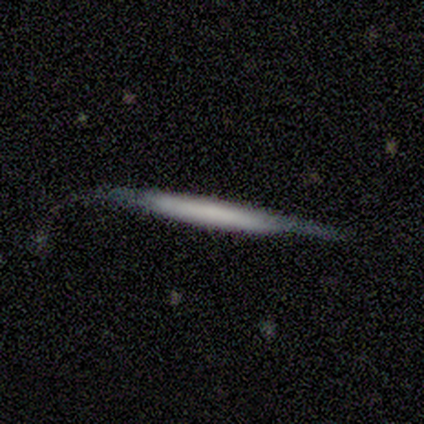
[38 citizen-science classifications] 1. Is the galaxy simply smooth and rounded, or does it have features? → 61% featured or disk, 34% smooth, 5% star or artifact.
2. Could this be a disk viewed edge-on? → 96% yes, 4% no.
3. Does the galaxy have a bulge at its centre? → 77% none, 18% boxy, 5% rounded.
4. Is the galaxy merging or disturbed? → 56% none, 31% minor disturbance, 11% major disturbance, 3% merger.